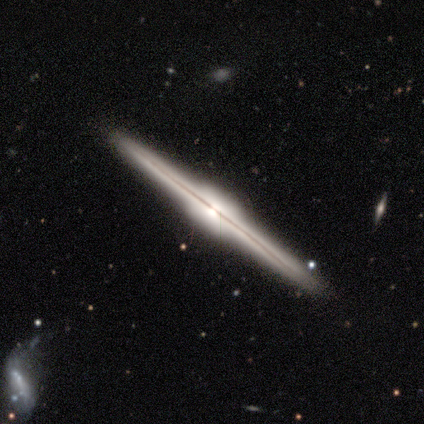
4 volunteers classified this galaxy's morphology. Q: Smooth or featured?
A: featured or disk (100%)
Q: Edge-on disk?
A: yes (100%)
Q: Edge-on bulge?
A: rounded (50%); runner-up: boxy (25%)
Q: Merging?
A: none (100%)